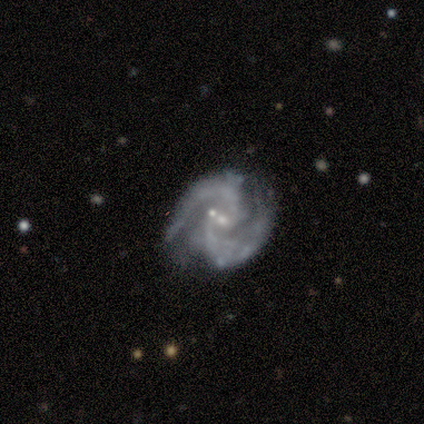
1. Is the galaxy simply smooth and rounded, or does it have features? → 92% featured or disk, 8% star or artifact, 0% smooth.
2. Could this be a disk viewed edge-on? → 97% no, 3% yes.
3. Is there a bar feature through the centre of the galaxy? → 41% no, 38% weak, 21% strong.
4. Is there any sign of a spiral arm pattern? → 97% yes, 3% no.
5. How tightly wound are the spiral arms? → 48% medium, 39% tight, 12% loose.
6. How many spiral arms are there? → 91% 2, 6% 3, 3% can't tell, 0% 1, 0% 4, 0% more than 4.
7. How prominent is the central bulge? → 74% small, 21% moderate, 6% none, 0% dominant, 0% large.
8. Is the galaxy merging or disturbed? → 51% none, 20% minor disturbance, 20% merger, 9% major disturbance.